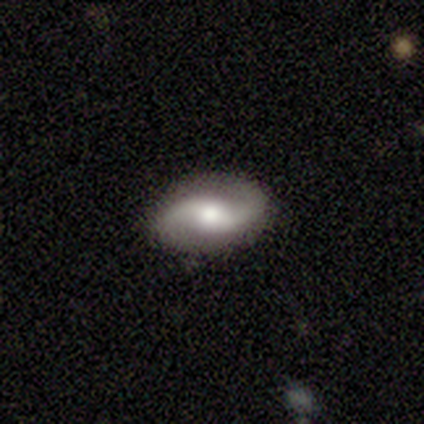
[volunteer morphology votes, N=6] featured or disk 83%, star or artifact 17%, smooth 0%. Down the decision tree: edge-on disk — no (100%); bar — strong (80%); spiral arms — yes (100%); spiral arm count — 2 (100%); spiral winding — loose (80%); bulge size — moderate (60%); merging — none (100%).